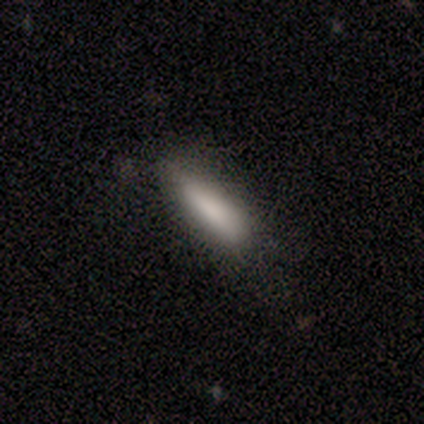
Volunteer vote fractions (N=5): Volunteers were most divided on "merging": minor disturbance: 60%, none: 20%, major disturbance: 20%, merger: 0%. More confident: smooth or featured — smooth (80%); how rounded — cigar-shaped (75%).